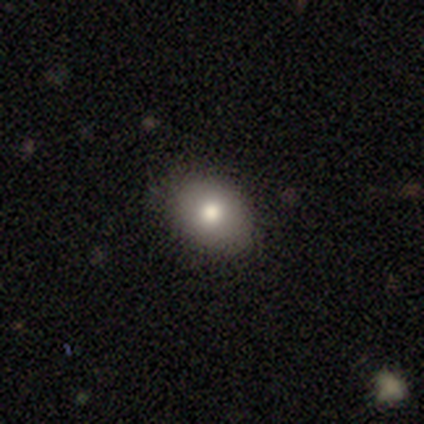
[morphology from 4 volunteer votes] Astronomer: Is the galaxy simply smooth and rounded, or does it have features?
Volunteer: smooth — 75%.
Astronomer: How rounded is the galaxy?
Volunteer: in between — 67%.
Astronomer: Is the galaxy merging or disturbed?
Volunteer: none — 67%.